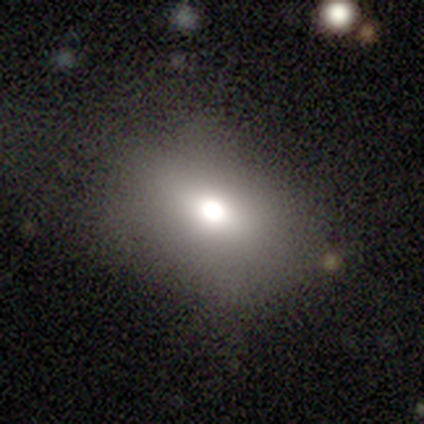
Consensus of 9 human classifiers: This is likely a smooth galaxy (67%). How rounded: clearly in between (83%). Merging: clearly none (100%).